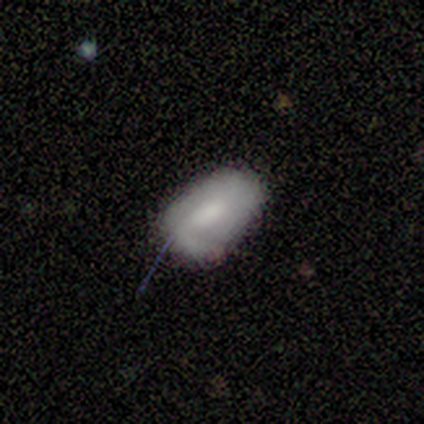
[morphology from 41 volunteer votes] Overall: smooth (54%; featured or disk 32%). How rounded: in between (91%). Merging: none (49%; minor disturbance 34%).